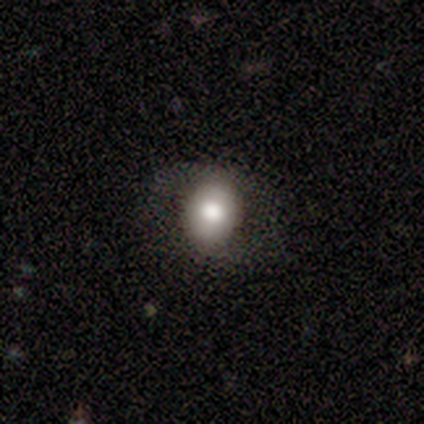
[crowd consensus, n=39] smooth 67%, featured or disk 28%, star or artifact 5%. Down the decision tree: how rounded — round (50%, tied with in between); merging — none (68%).